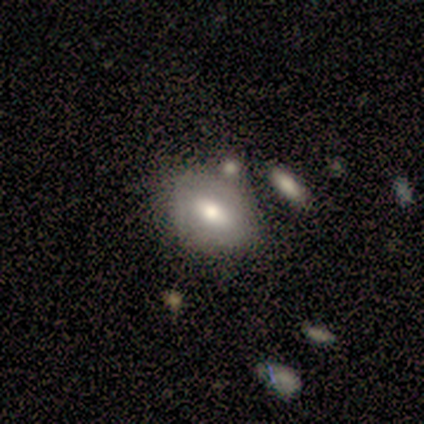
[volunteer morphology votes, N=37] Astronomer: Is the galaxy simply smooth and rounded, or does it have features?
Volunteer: smooth — 59%.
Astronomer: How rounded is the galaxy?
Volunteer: in between — 73%.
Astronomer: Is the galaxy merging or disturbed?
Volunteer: none — 62%.